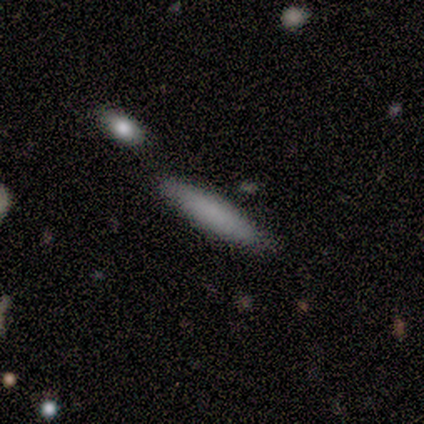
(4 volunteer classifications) smooth 75%, star or artifact 25%, featured or disk 0%. Down the decision tree: how rounded — cigar-shaped (100%); merging — none (100%).